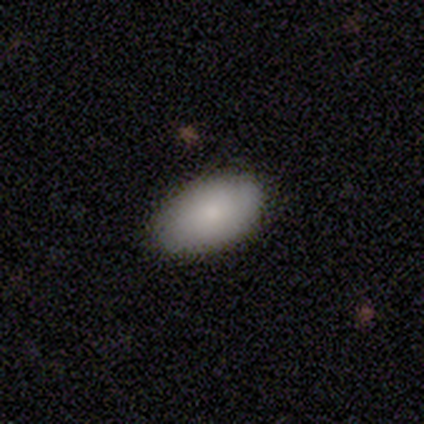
This appears to be a smooth galaxy with no disk features (100%) that is in between round and cigar-shaped (100%). Merging: none (100%).